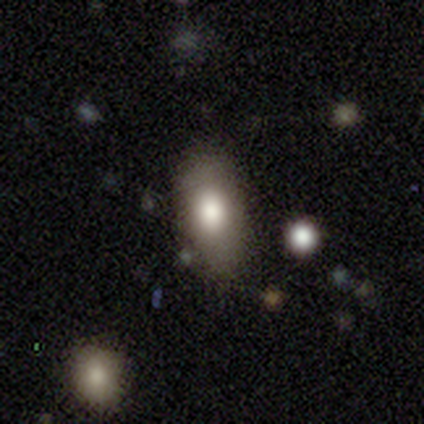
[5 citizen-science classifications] This is likely a smooth galaxy (60%). How rounded: clearly in between (100%). Merging: clearly none (100%).